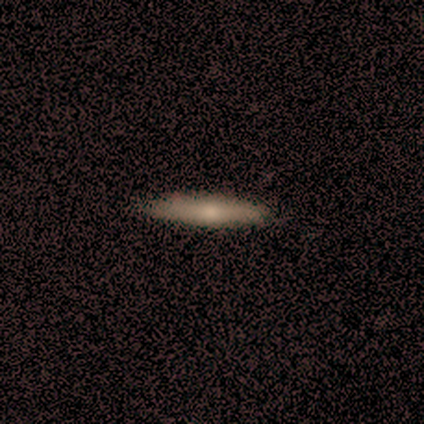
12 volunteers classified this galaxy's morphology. smooth 58%, featured or disk 42%, star or artifact 0%. Down the decision tree: how rounded — cigar-shaped (100%); merging — none (75%).